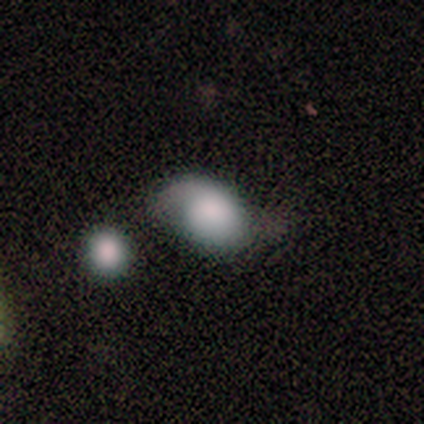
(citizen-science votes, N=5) smooth-or-featured: smooth: 80% | featured or disk: 20% | star or artifact: 0%
  how-rounded: in between: 75% | round: 25% | cigar-shaped: 0%
  merging: none: 40% (tied) | minor disturbance: 40% (tied) | merger: 20% | major disturbance: 0%